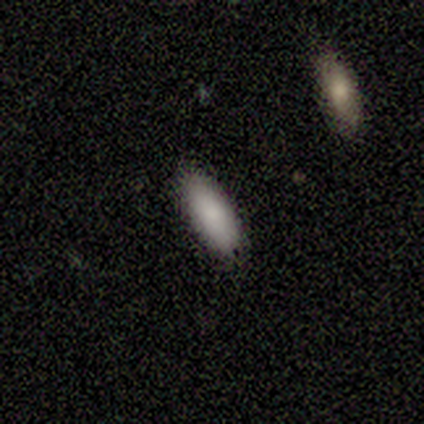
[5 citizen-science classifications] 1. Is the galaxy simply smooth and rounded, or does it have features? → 100% smooth, 0% featured or disk, 0% star or artifact.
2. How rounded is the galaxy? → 80% cigar-shaped, 20% in between, 0% round.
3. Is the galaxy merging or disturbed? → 100% none, 0% minor disturbance, 0% major disturbance, 0% merger.